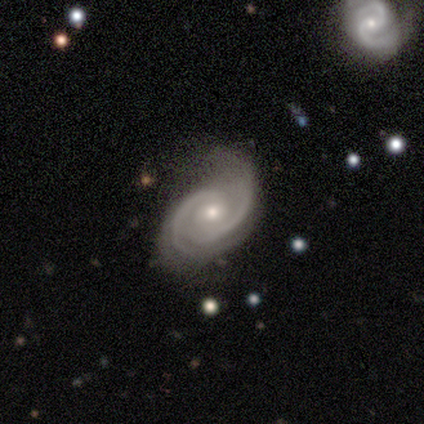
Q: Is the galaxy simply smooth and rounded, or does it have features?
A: featured or disk — 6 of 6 (100%).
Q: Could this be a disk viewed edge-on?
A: no — 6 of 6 (100%).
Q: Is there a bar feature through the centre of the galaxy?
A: no — 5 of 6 (83%).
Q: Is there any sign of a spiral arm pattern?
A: yes — 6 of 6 (100%).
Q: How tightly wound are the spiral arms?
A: tight — 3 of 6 (50%, tied with medium).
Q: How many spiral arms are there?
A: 2 — 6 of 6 (100%).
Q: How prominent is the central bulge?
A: moderate — 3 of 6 (50%, tied with small).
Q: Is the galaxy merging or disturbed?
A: none — 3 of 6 (50%, tied with minor disturbance).